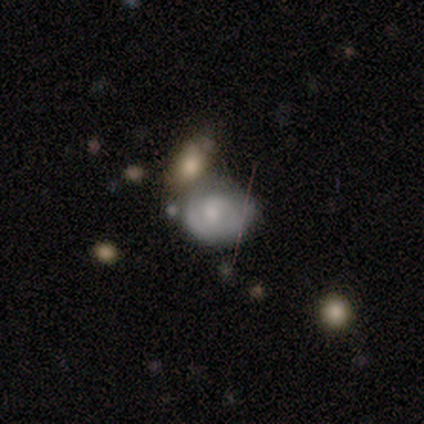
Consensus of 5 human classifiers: Smooth or featured: smooth — 60% (featured or disk — 40%)
How rounded: round — 67% (in between — 33%)
Merging: merger — 60% (none — 20%)